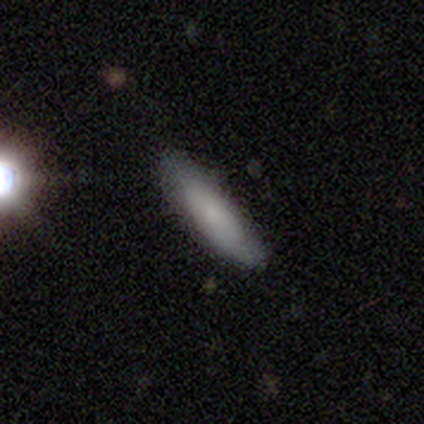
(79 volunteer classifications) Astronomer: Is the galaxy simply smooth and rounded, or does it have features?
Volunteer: smooth — 72%.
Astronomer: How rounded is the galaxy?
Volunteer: cigar-shaped — 63%.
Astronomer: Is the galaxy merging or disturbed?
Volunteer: none — 54%.